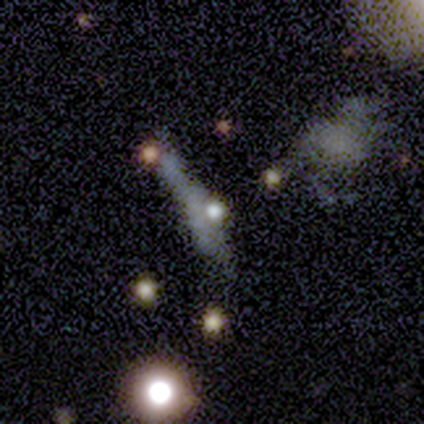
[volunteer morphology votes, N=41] Volunteers were most divided on "edge-on disk" (2-way tie): yes: 50%, no: 50%; "merging" (2-way tie): none: 34%, minor disturbance: 34%, major disturbance: 31%, merger: 0%. Remaining: edge-on bulge — rounded (62%); smooth or featured — featured or disk (39%).